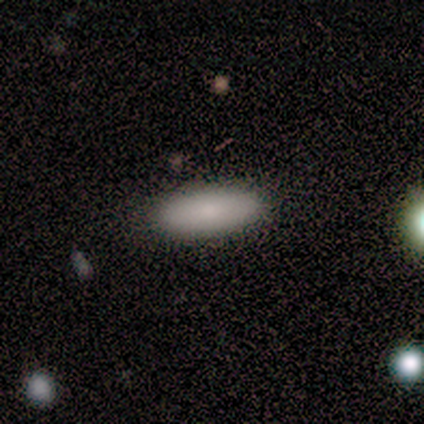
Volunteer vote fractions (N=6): Volunteers were most divided on "how rounded": in between: 83%, round: 17%, cigar-shaped: 0%. More confident: smooth or featured — smooth (100%); merging — none (100%).